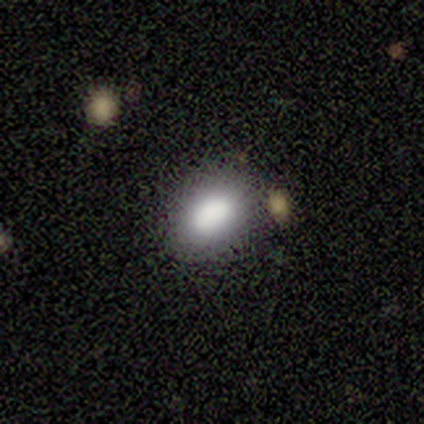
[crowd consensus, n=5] Consensus on every question: smooth or featured — smooth (100%); how rounded — in between (100%); merging — none (100%).